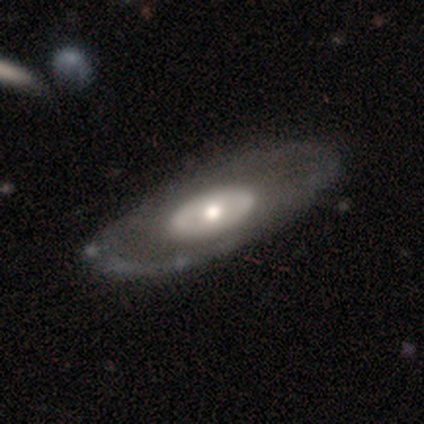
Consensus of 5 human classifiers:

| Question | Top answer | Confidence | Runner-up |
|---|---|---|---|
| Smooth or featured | featured or disk | 80% | star or artifact (20%) |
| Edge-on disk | no | 100% | — |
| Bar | no | 100% | — |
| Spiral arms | no | 75% | yes (25%) |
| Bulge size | large | 50% | tied: moderate (50%) |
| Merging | none | 75% | minor disturbance (25%) |